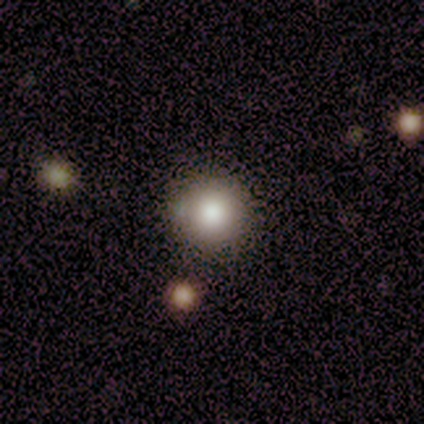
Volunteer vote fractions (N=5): Smooth or featured? 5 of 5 (100%) said smooth. How rounded? 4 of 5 (80%) said round. Merging? 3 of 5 (60%) said none.